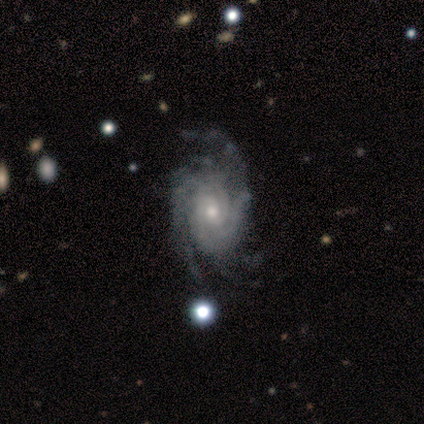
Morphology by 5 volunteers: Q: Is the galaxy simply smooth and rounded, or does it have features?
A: featured or disk — 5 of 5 (100%).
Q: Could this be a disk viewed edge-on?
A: no — 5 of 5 (100%).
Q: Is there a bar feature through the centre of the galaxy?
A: no — 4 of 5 (80%).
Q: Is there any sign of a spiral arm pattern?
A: yes — 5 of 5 (100%).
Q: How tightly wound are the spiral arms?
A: tight — 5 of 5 (100%).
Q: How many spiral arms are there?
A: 3 — 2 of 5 (40%, tied with can't tell).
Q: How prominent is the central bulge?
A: small — 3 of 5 (60%).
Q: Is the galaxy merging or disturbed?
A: none — 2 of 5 (40%, tied with minor disturbance).